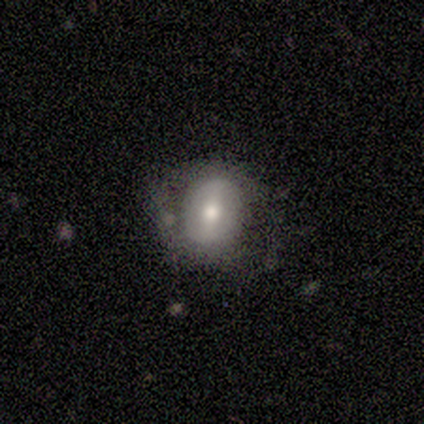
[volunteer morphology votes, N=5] Smooth or featured? smooth (40%, tied with featured or disk)
How rounded? round (50%, tied with in between)
Merging? none (100%)